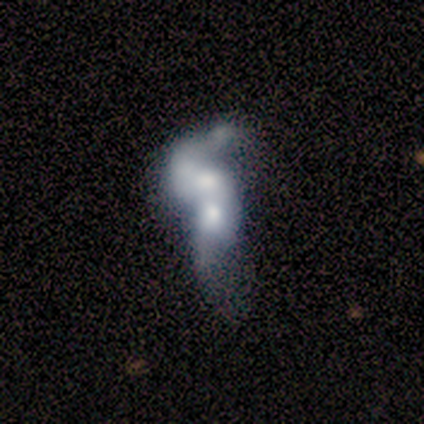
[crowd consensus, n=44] Morphology: type=featured or disk (66%); edge-on=no (100%); bar=no (90%); spiral arms=no (72%); bulge=moderate (52%); merging=merger (88%).